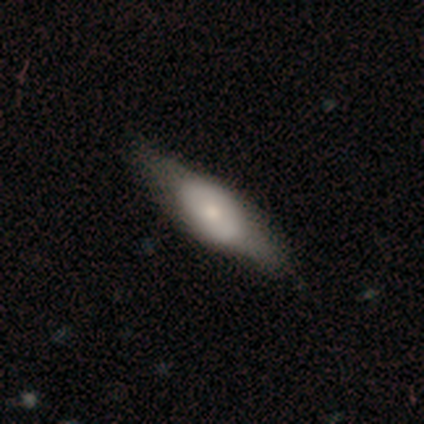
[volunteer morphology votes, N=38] Smooth or featured? 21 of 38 (55%) said smooth. How rounded? 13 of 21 (62%) said in between. Merging? 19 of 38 (50%) said none.